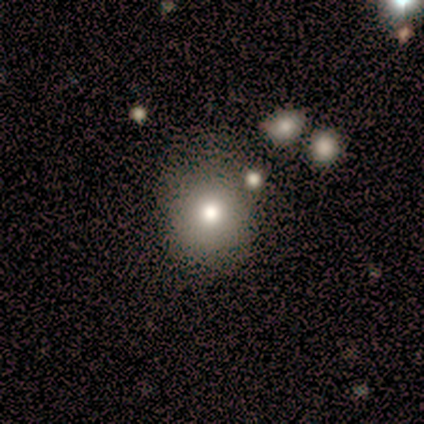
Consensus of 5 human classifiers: Smooth or featured? 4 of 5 (80%) said smooth. How rounded? 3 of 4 (75%) said round. Merging? 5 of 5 (100%) said none.